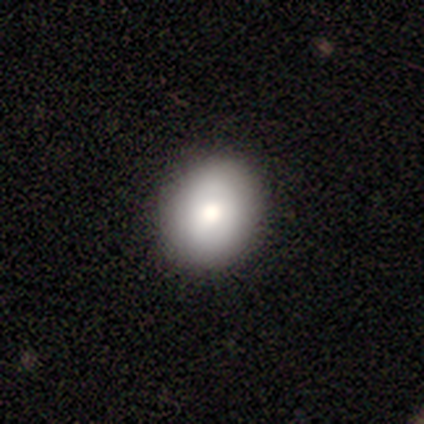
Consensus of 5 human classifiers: Overall: smooth (80%). How rounded: round (75%). Merging: none (75%).